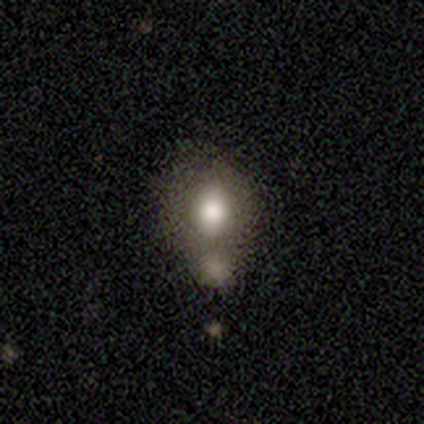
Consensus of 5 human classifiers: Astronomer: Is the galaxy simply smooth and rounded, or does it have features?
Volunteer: smooth — 60% (runner-up: featured or disk, 40%).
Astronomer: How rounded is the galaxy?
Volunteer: round — 67%.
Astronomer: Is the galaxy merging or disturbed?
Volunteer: merger — 60% (runner-up: minor disturbance, 40%).